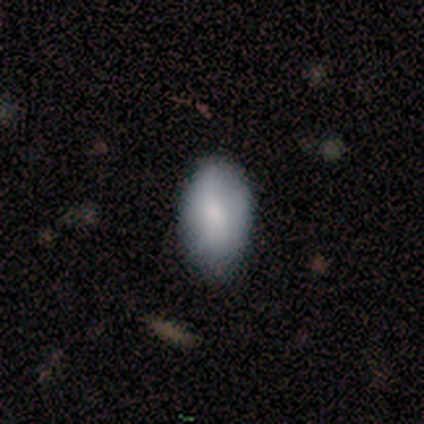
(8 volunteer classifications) A smooth galaxy with no disk features (88%) that is in between round and cigar-shaped (100%).

Vote fractions:
- Smooth or featured? smooth: 88% / featured or disk: 12% / star or artifact: 0%
- How rounded? in between: 100% / round: 0% / cigar-shaped: 0%
- Merging? none: 62% / minor disturbance: 25% / major disturbance: 12% / merger: 0%